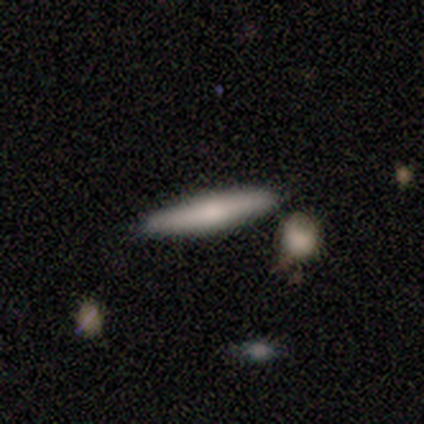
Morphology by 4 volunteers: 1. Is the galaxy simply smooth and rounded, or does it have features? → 100% smooth, 0% featured or disk, 0% star or artifact.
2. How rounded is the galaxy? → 75% cigar-shaped, 25% in between, 0% round.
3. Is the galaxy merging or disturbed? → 75% none, 25% minor disturbance, 0% major disturbance, 0% merger.